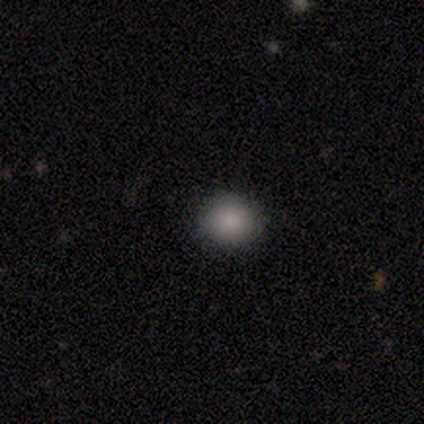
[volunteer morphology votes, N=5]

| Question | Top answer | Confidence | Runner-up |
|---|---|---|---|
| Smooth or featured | smooth | 100% | — |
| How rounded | round | 60% | in between (40%) |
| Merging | none | 100% | — |